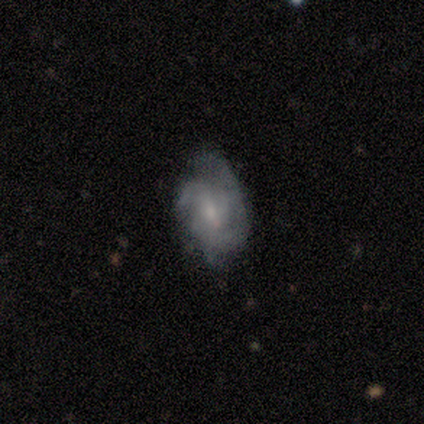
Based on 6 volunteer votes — Morphology: type=featured or disk (83%); edge-on=no (100%); bar=no (80%); spiral arms=yes (60%); winding=medium (67%); arm count=2 (33%, tied with 4 and can't tell); bulge=small (80%); merging=none (50%, tied with major disturbance).